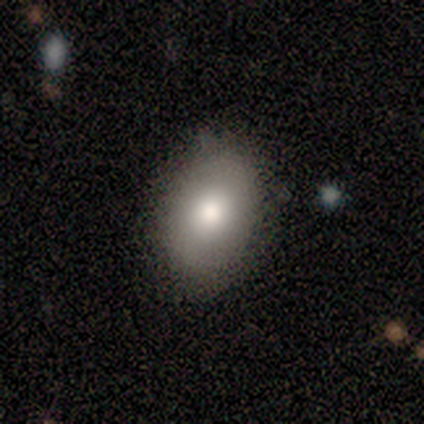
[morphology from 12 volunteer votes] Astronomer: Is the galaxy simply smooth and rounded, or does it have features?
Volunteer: smooth — 92%.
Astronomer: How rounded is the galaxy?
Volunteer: in between — 82%.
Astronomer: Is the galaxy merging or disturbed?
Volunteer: none — 83%.